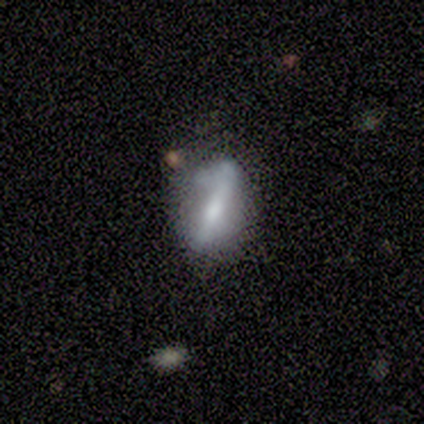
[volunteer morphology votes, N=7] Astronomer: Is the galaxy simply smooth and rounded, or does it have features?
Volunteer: featured or disk — 57%.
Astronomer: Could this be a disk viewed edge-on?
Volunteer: yes — 50%, tied with no at 50%.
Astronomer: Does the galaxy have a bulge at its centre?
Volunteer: none — 50%, tied with rounded at 50%.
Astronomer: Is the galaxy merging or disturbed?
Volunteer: none — 40%, tied with minor disturbance at 40%.